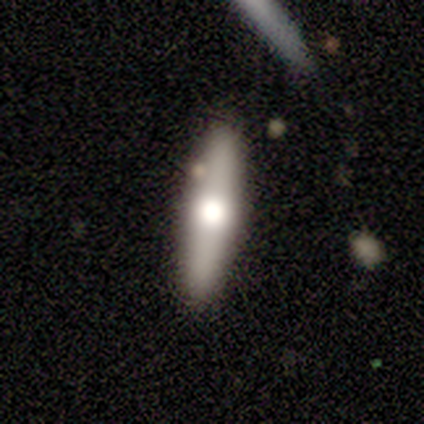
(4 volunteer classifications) Morphology: type=smooth (50%, tied with featured or disk); roundness=cigar-shaped (100%); merging=none (100%).